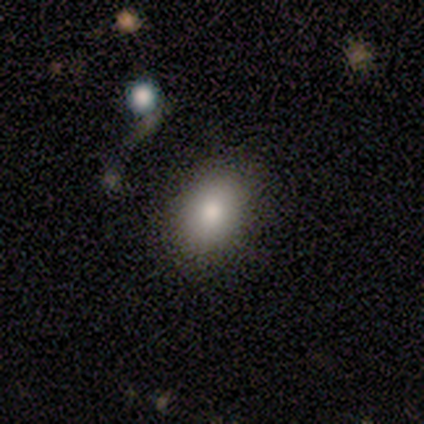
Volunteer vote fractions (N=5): Overall: smooth (80%). How rounded: in between (75%). Merging: none (80%).